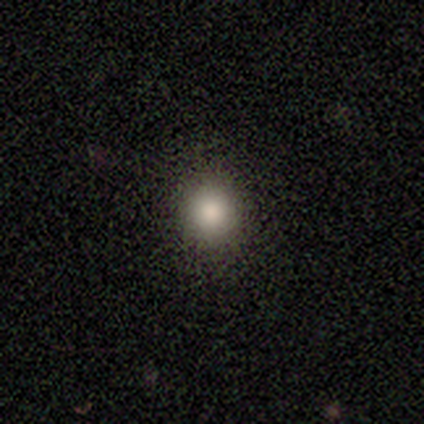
smooth-or-featured: smooth: 88% | featured or disk: 12% | star or artifact: 0%
  how-rounded: round: 100% | in between: 0% | cigar-shaped: 0%
  merging: none: 100% | minor disturbance: 0% | major disturbance: 0% | merger: 0%